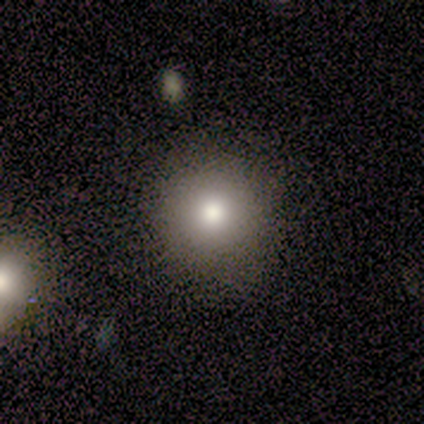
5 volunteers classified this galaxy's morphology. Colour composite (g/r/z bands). It shows a smooth galaxy with no disk features (100%) that is round (100%). Merging: none (100%).